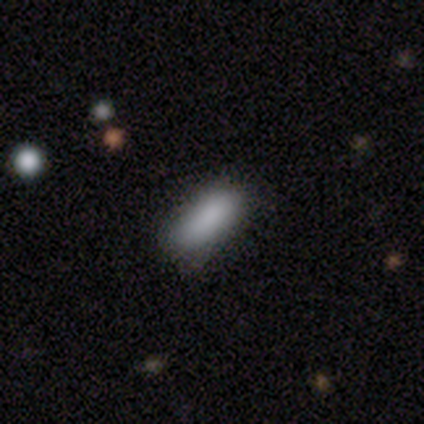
smooth-or-featured: smooth: 80% | featured or disk: 20% | star or artifact: 0%
  how-rounded: in between: 50% (tied) | cigar-shaped: 50% (tied) | round: 0%
  merging: none: 80% | minor disturbance: 20% | major disturbance: 0% | merger: 0%